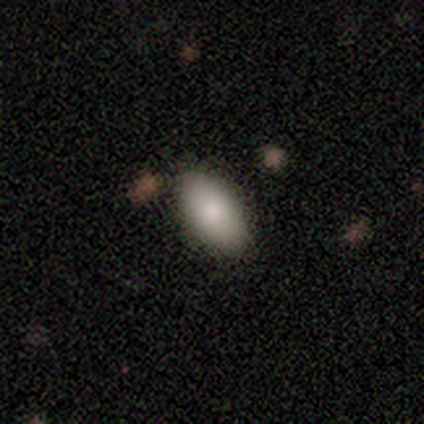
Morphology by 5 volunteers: This is clearly a smooth galaxy (80%). How rounded: clearly in between (100%). Merging: clearly none (100%).